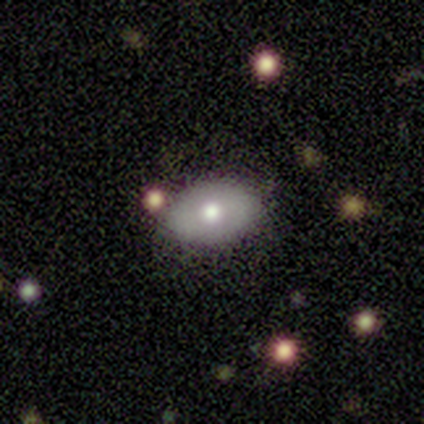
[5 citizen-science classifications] smooth_or_featured: featured or disk (p=0.60) [alt: smooth p=0.40]
disk_edge_on: no (p=1.00)
bar: no (p=0.67) [alt: weak p=0.33]
has_spiral_arms: no (p=1.00)
bulge_size: large (p=0.33) [tied with: moderate p=0.33, small p=0.33]
merging: none (p=1.00)